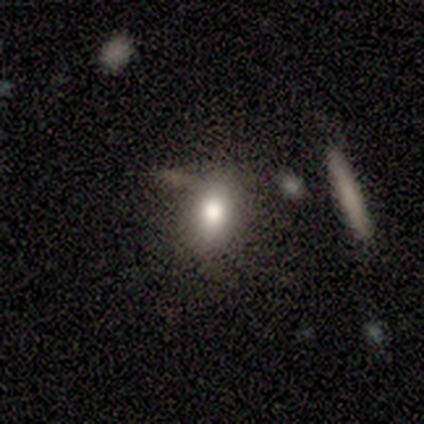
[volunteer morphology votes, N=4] Q: Smooth or featured?
A: smooth (100%)
Q: How rounded?
A: in between (75%); runner-up: round (25%)
Q: Merging?
A: none (50%); tied with: merger (50%)